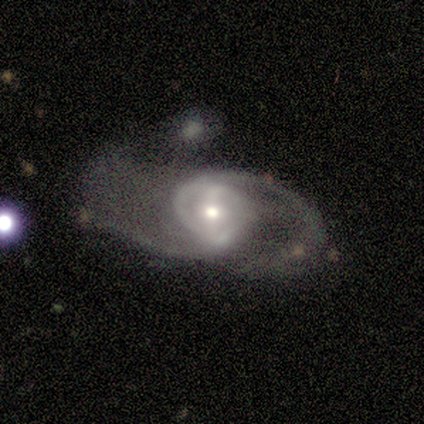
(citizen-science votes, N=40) This is clearly a featured or disk galaxy (92%). It is clearly not viewed edge-on (100%). Bar: possibly weak (49%). Spiral arm pattern: clearly yes (92%). Spiral arm count: clearly 2 (82%). Spiral winding: possibly loose (53%). Central bulge: possibly moderate (49%). Merging: possibly major disturbance (46%).